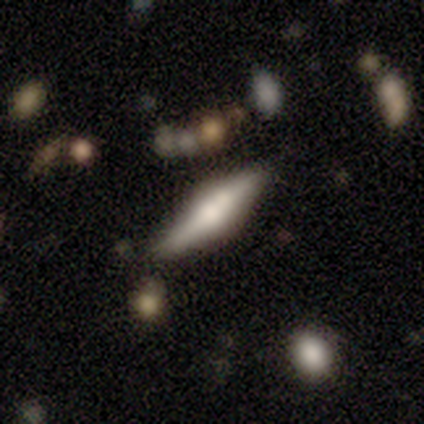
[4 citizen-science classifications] A smooth galaxy with no disk features (50%) that is in between round and cigar-shaped (100%). Merging: none (100%).